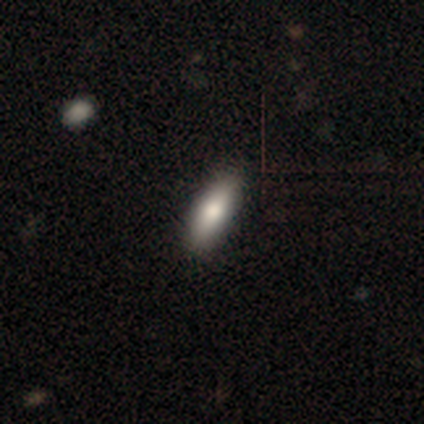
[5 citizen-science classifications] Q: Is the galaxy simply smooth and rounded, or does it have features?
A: smooth — 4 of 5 (80%).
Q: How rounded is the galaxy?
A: in between — 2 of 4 (50%, tied with cigar-shaped).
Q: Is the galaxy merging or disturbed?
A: none — 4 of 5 (80%).